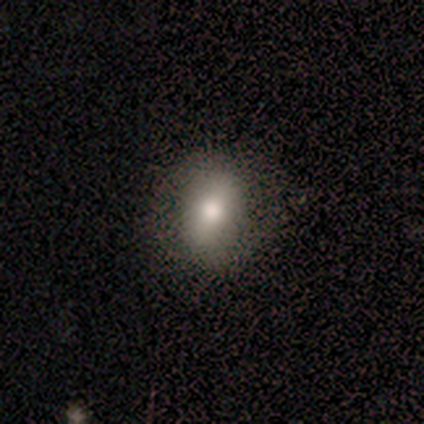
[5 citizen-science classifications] Smooth or featured: smooth — 60% (star or artifact — 40%)
How rounded: in between — 100%
Merging: none — 67% (minor disturbance — 33%)